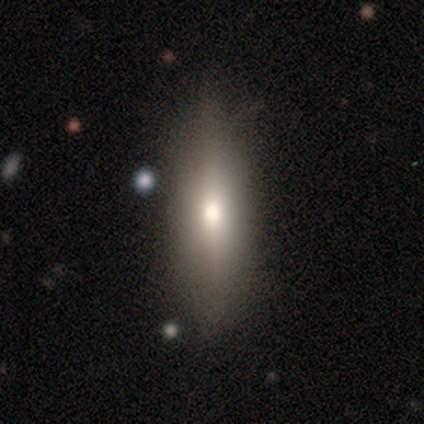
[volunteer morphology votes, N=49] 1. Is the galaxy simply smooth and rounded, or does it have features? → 59% smooth, 33% featured or disk, 8% star or artifact.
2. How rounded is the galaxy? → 48% in between (tied), 48% cigar-shaped (tied), 3% round.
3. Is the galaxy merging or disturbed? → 78% none, 16% minor disturbance, 7% major disturbance, 0% merger.